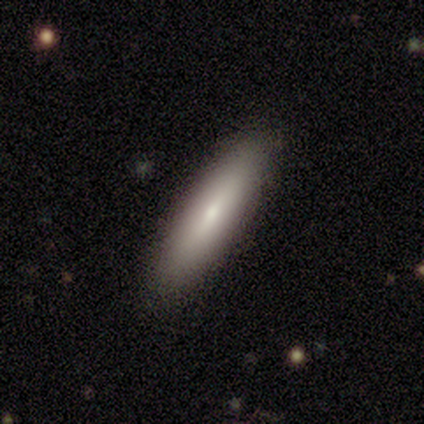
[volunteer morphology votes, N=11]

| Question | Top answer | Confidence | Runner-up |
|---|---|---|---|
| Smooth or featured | smooth | 82% | featured or disk (18%) |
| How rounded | cigar-shaped | 78% | in between (22%) |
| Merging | none | 82% | major disturbance (18%) |